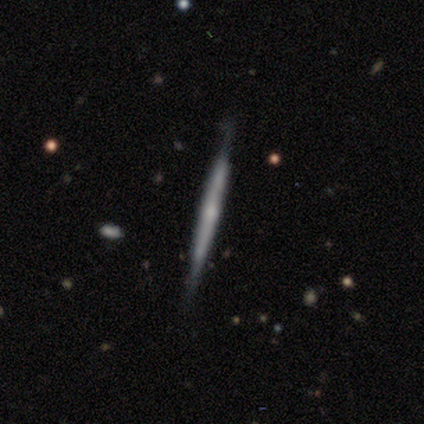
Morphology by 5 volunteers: Smooth or featured? featured or disk (80%)
Edge-on disk? yes (100%)
Edge-on bulge? none (50%, tied with rounded)
Merging? none (60%)